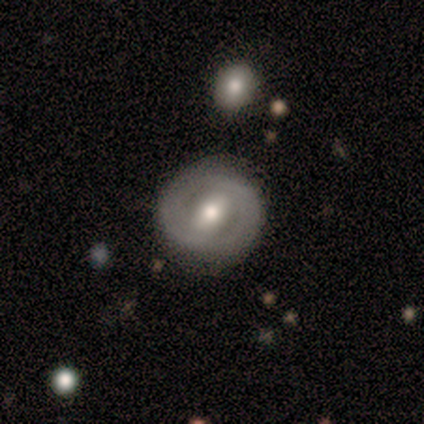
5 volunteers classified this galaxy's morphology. Overall: featured or disk (100%). Edge-on disk: no (100%). Bar: strong (40%, tied with weak). Spiral arms: yes (100%). Spiral arm count: 2 (100%). Spiral winding: medium (40%, tied with loose). Bulge size: moderate (60%; small 40%). Merging: none (100%).